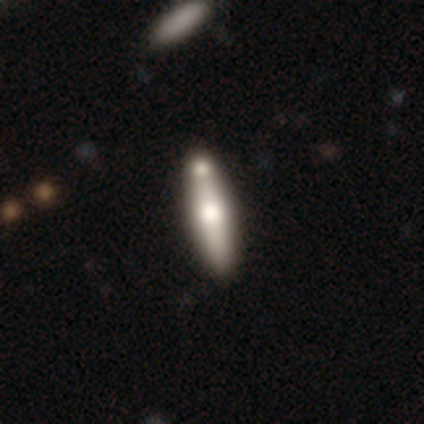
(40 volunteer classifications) Smooth or featured: smooth — 55% (featured or disk — 42%)
How rounded: cigar-shaped — 77% (in between — 23%)
Merging: none — 59% (merger — 31%)